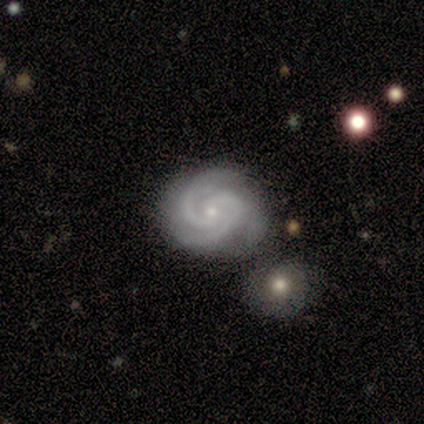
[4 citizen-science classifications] A featured or disk galaxy (100%) with no bar (100%), 2 (50%, tied with 3) tight (75%) spiral arms (100%) and a small central bulge (75%).

Vote fractions:
- Smooth or featured? featured or disk: 100% / smooth: 0% / star or artifact: 0%
- Edge-on disk? no: 100% / yes: 0%
- Bar? no: 100% / strong: 0% / weak: 0%
- Spiral arms? yes: 100% / no: 0%
- Spiral winding? tight: 75% / medium: 25% / loose: 0%
- Spiral arm count? 2: 50% (tied) / 3: 50% (tied) / 1: 0% / 4: 0% / more than 4: 0% / can't tell: 0%
- Bulge size? small: 75% / moderate: 25% / dominant: 0% / large: 0% / none: 0%
- Merging? none: 100% / minor disturbance: 0% / major disturbance: 0% / merger: 0%